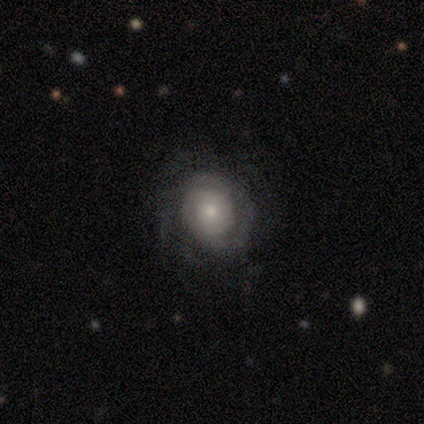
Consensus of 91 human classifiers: Q: Smooth or featured?
A: featured or disk (70%); runner-up: smooth (24%)
Q: Edge-on disk?
A: no (100%)
Q: Bar?
A: no (83%); runner-up: weak (14%)
Q: Spiral arms?
A: yes (80%); runner-up: no (20%)
Q: Spiral winding?
A: tight (73%); runner-up: medium (20%)
Q: Spiral arm count?
A: can't tell (49%); runner-up: 2 (18%)
Q: Bulge size?
A: small (59%); runner-up: moderate (36%)
Q: Merging?
A: none (67%); runner-up: minor disturbance (17%)